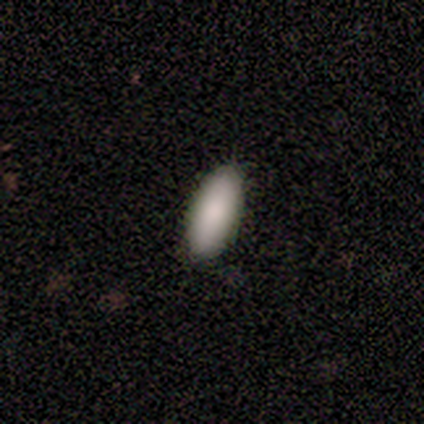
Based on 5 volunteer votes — A smooth galaxy with no disk features (100%) that is in between round and cigar-shaped (100%).

Vote fractions:
- Smooth or featured? smooth: 100% / featured or disk: 0% / star or artifact: 0%
- How rounded? in between: 100% / round: 0% / cigar-shaped: 0%
- Merging? none: 80% / minor disturbance: 20% / major disturbance: 0% / merger: 0%